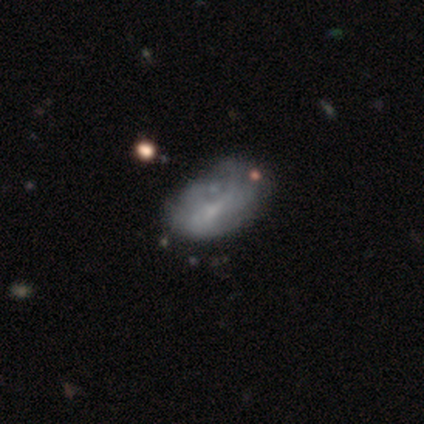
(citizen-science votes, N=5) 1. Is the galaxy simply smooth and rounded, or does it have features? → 60% featured or disk, 20% smooth, 20% star or artifact.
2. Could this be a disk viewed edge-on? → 100% no, 0% yes.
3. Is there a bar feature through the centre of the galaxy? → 67% no, 33% weak, 0% strong.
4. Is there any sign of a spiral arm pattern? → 67% no, 33% yes.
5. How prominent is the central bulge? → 67% small, 33% none, 0% dominant, 0% large, 0% moderate.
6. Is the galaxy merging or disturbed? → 25% none (tied), 25% minor disturbance (tied), 25% major disturbance (tied), 25% merger (tied).